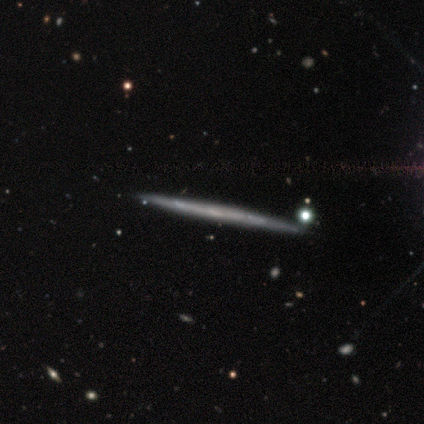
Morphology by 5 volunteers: A featured or disk galaxy (100%) viewed edge-on (100%) with no central bulge (100%).

Vote fractions:
- Smooth or featured? featured or disk: 100% / smooth: 0% / star or artifact: 0%
- Edge-on disk? yes: 100% / no: 0%
- Edge-on bulge? none: 100% / boxy: 0% / rounded: 0%
- Merging? none: 80% / minor disturbance: 20% / major disturbance: 0% / merger: 0%